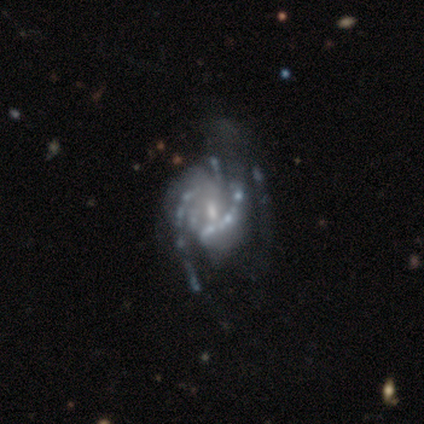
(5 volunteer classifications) Smooth or featured? 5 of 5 (100%) said featured or disk. Edge-on disk? 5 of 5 (100%) said no. Bar? 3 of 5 (60%) said no. Spiral arms? 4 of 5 (80%) said yes. Spiral winding? 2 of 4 (50%, tied with loose) said medium. Spiral arm count? 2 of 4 (50%) said 2. Bulge size? 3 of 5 (60%) said small. Merging? 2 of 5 (40%, tied with major disturbance) said minor disturbance.